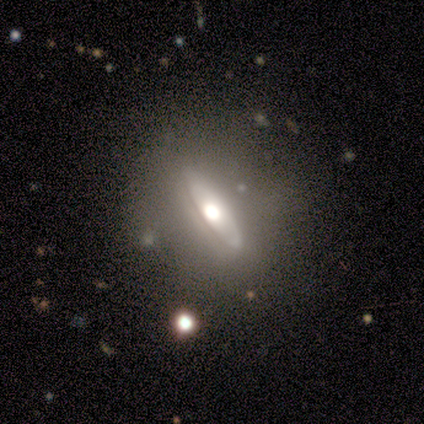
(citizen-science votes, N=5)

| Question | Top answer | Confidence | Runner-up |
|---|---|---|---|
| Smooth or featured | smooth | 40% | tied: featured or disk (40%) |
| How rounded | cigar-shaped | 100% | — |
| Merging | none | 50% | minor disturbance (25%) |